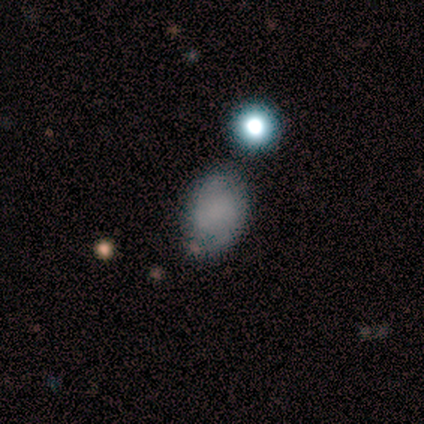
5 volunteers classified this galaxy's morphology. A smooth galaxy with no disk features (40%, tied with featured or disk) that is in between round and cigar-shaped (100%). Merging: none (75%).